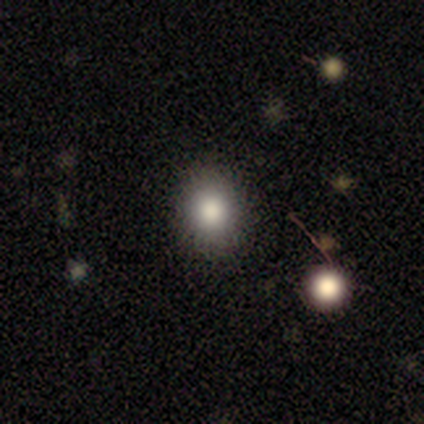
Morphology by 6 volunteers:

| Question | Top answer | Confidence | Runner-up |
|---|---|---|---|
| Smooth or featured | smooth | 67% | star or artifact (33%) |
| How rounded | round | 75% | in between (25%) |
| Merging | none | 100% | — |